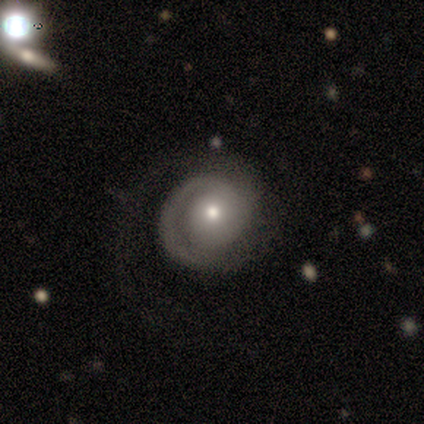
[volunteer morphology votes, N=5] A featured or disk galaxy (100%) with no bar (100%), 2 (50%) tight (75%) spiral arms (100%) and a moderate central bulge (75%). Merging: none (40%, tied with major disturbance).